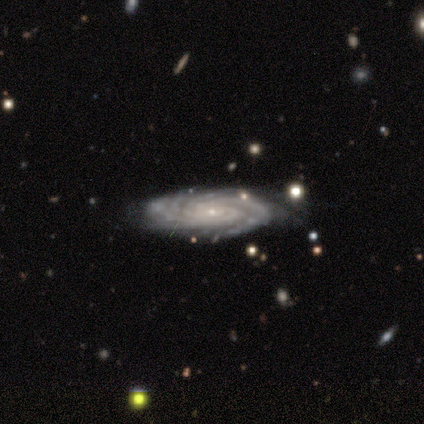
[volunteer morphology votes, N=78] type=featured or disk (96%); edge-on=no (100%); bar=no (80%); spiral arms=yes (100%); winding=tight (85%); arm count=more than 4 (32%); bulge=small (91%); merging=none (75%).